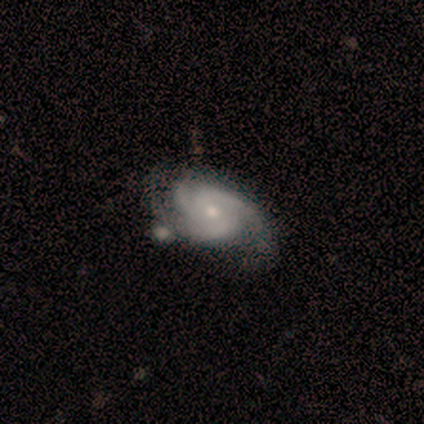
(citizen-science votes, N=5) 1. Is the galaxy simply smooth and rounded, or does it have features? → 100% featured or disk, 0% smooth, 0% star or artifact.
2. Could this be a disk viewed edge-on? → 100% no, 0% yes.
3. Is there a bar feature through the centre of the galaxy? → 100% no, 0% strong, 0% weak.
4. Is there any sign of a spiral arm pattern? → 100% yes, 0% no.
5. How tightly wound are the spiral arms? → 80% medium, 20% tight, 0% loose.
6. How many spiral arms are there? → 60% 3, 40% 2, 0% 1, 0% 4, 0% more than 4, 0% can't tell.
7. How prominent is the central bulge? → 60% small, 40% moderate, 0% dominant, 0% large, 0% none.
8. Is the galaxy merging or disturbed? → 60% none, 40% major disturbance, 0% minor disturbance, 0% merger.